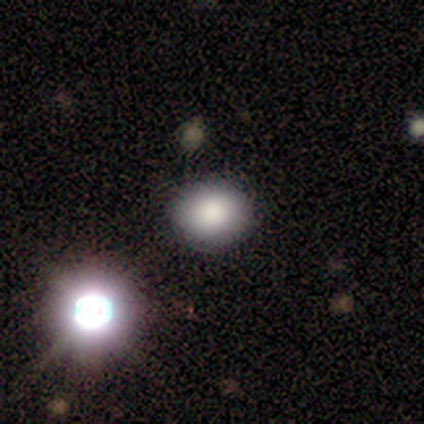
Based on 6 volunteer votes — Smooth or featured?
  - smooth: 83% *
  - star or artifact: 17%
  - featured or disk: 0%
How rounded?
  - in between: 60% *
  - round: 40%
  - cigar-shaped: 0%
Merging?
  - none: 80% *
  - major disturbance: 20%
  - minor disturbance: 0%
  - merger: 0%